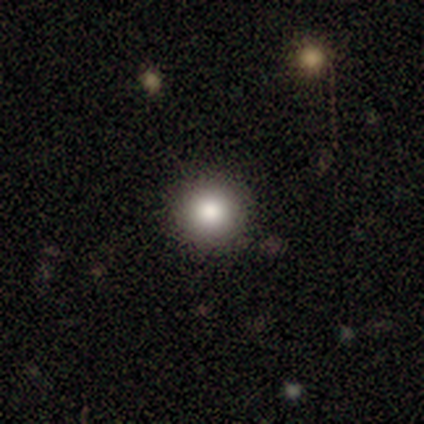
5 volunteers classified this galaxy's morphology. Volunteers were most divided on "merging": none: 60%, minor disturbance: 40%, major disturbance: 0%, merger: 0%. More confident: smooth or featured — smooth (100%); how rounded — round (100%).